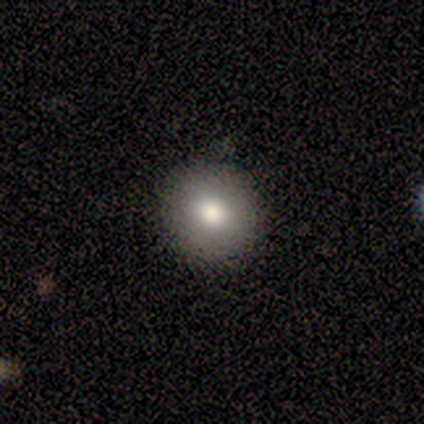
This is clearly a smooth galaxy (80%). How rounded: clearly round (92%). Merging: clearly none (93%).